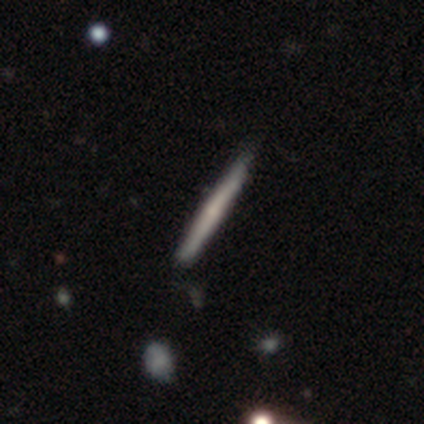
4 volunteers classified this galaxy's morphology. Q: Smooth or featured?
A: featured or disk (75%); runner-up: smooth (25%)
Q: Edge-on disk?
A: yes (100%)
Q: Edge-on bulge?
A: rounded (67%); runner-up: none (33%)
Q: Merging?
A: none (75%); runner-up: minor disturbance (25%)